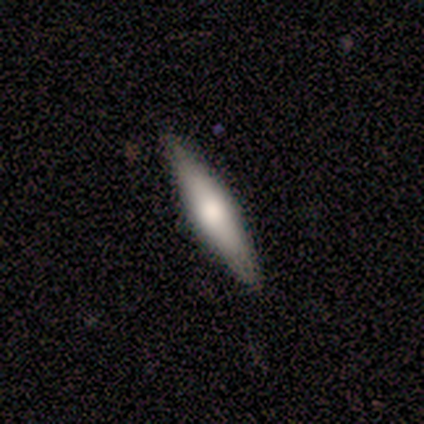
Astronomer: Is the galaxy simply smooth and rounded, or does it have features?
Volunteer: featured or disk — 62%.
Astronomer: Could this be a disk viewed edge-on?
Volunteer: yes — 100%.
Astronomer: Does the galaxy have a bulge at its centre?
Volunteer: none — 40%, tied with rounded at 40%.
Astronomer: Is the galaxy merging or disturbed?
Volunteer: none — 100%.